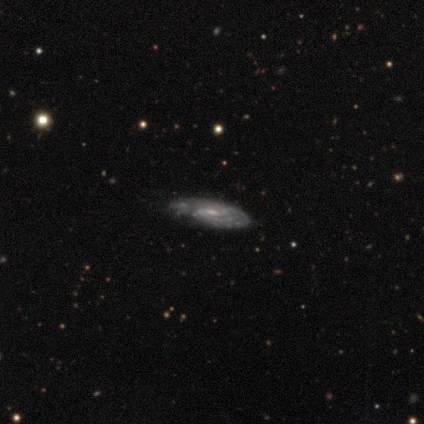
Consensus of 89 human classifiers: featured or disk 81%, smooth 15%, star or artifact 4%. Down the decision tree: edge-on disk — no (79%); bar — weak (49%); spiral arms — yes (84%); spiral arm count — can't tell (56%); spiral winding — tight (71%); bulge size — small (54%); merging — none (62%).